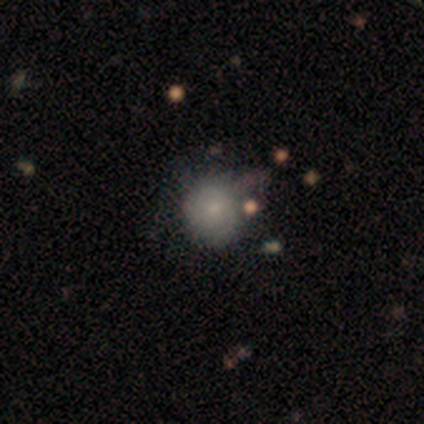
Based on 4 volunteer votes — Smooth or featured: smooth — 75% (featured or disk — 25%)
How rounded: round — 100%
Merging: none — 50% (tied with merger — 50%)